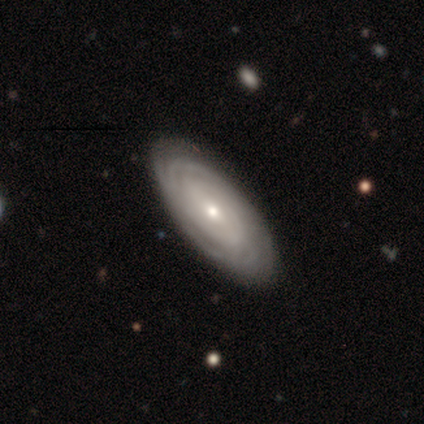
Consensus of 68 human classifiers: smooth-or-featured: featured or disk: 88% | smooth: 7% | star or artifact: 4%
  disk-edge-on: no: 92% | yes: 8%
    bar: no: 67% | weak: 31% | strong: 2%
    has-spiral-arms: yes: 87% | no: 13%
      spiral-winding: tight: 79% | medium: 12% | loose: 8%
      spiral-arm-count: can't tell: 65% | 4: 10% | more than 4: 10% | 3: 8% | 2: 6% | 1: 0%
    bulge-size: small: 55% | moderate: 42% | large: 4% | dominant: 0% | none: 0%
  merging: none: 46% | minor disturbance: 9% | major disturbance: 3% | merger: 2%